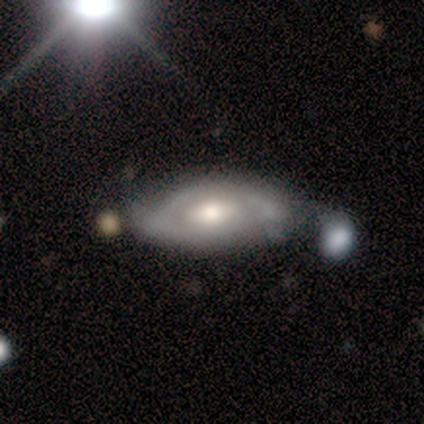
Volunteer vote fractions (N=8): This appears to be a featured or disk galaxy (62%) with a weak bar (50%, tied with no), 2 (67%) medium (67%) spiral arms (75%) and a moderate central bulge (75%). Merging: none (38%, tied with minor disturbance).